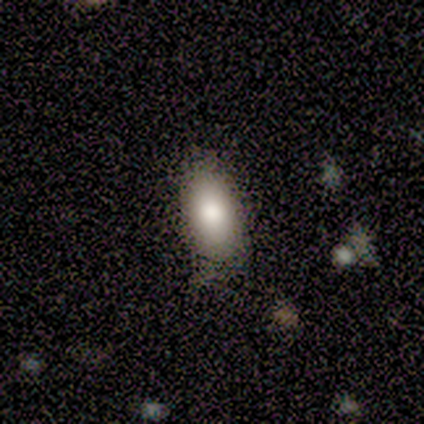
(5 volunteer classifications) A smooth galaxy with no disk features (100%) that is in between round and cigar-shaped (80%).

Vote fractions:
- Smooth or featured? smooth: 100% / featured or disk: 0% / star or artifact: 0%
- How rounded? in between: 80% / round: 20% / cigar-shaped: 0%
- Merging? none: 100% / minor disturbance: 0% / major disturbance: 0% / merger: 0%